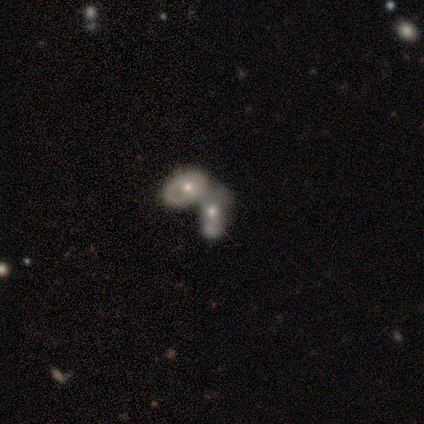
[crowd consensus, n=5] Smooth or featured? 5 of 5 (100%) said featured or disk. Edge-on disk? 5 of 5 (100%) said no. Bar? 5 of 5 (100%) said no. Spiral arms? 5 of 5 (100%) said no. Bulge size? 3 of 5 (60%) said moderate. Merging? 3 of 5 (60%) said merger.